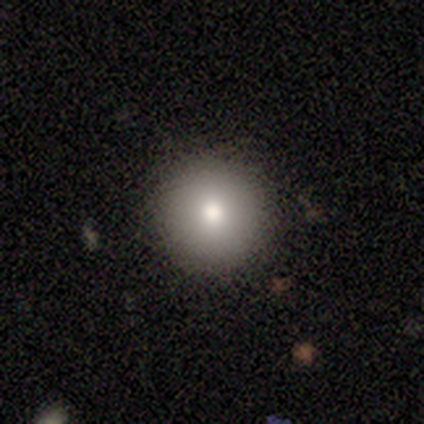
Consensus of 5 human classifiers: This appears to be a smooth galaxy with no disk features (60%) that is round (100%). Merging: none (100%).